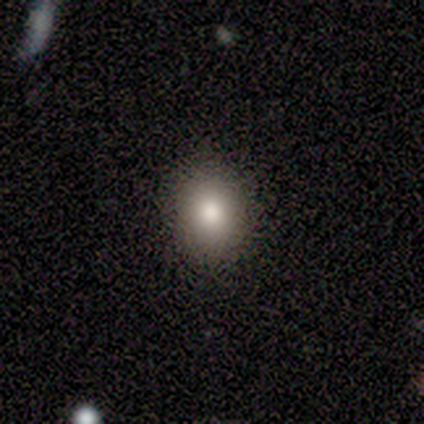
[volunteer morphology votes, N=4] Overall: smooth (100%). How rounded: round (50%, tied with in between). Merging: none (75%).